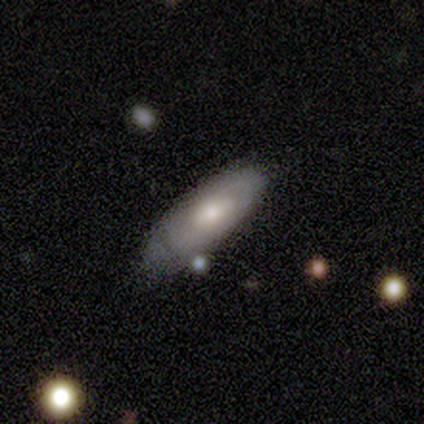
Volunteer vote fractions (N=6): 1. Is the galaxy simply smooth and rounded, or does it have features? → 50% smooth (tied), 50% featured or disk (tied), 0% star or artifact.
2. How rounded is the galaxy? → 100% in between, 0% round, 0% cigar-shaped.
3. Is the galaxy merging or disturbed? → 83% none, 17% merger, 0% minor disturbance, 0% major disturbance.